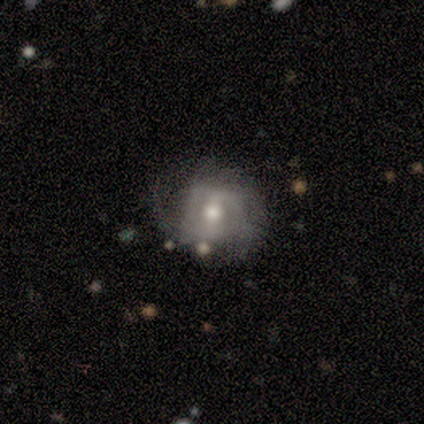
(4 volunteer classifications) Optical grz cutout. It shows a featured or disk galaxy (75%) with no bar (67%), 3 (67%) tight (33%, tied with medium and loose) spiral arms (100%) and a moderate central bulge (67%). Merging: none (100%).